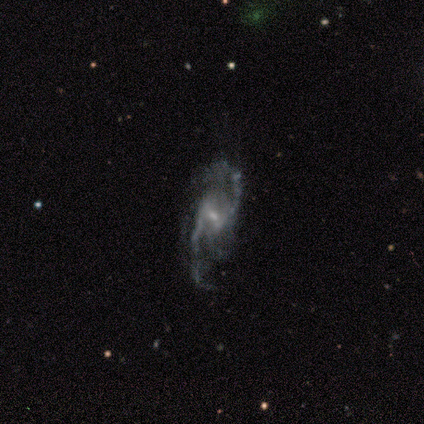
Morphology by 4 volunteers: Smooth or featured? featured or disk (75%)
Edge-on disk? no (100%)
Bar? weak (100%)
Spiral arms? yes (100%)
Spiral winding? loose (100%)
Spiral arm count? 2 (100%)
Bulge size? small (67%)
Merging? none (50%, tied with major disturbance)